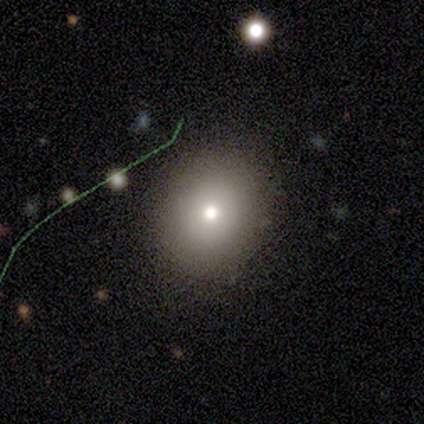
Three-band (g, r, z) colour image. It shows a smooth galaxy with no disk features (75%) that is round (67%). Merging: none (100%).